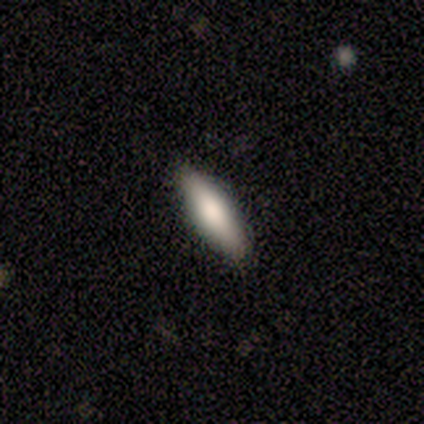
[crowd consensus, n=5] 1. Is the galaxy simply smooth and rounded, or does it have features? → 60% smooth, 40% featured or disk, 0% star or artifact.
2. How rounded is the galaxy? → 67% in between, 33% cigar-shaped, 0% round.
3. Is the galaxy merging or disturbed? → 100% none, 0% minor disturbance, 0% major disturbance, 0% merger.